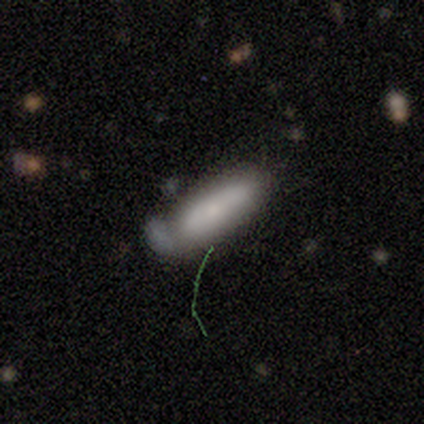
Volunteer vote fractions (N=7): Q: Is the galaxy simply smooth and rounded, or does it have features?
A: smooth — 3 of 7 (43%, tied with featured or disk).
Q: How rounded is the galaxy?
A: in between — 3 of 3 (100%).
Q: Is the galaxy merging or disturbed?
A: none — 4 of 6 (67%).